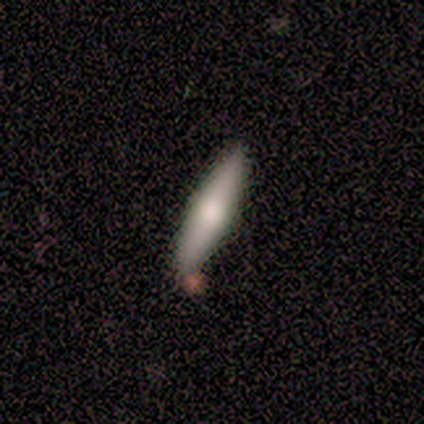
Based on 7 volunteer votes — A smooth galaxy with no disk features (57%) that is cigar-shaped (100%). Merging: none (71%).